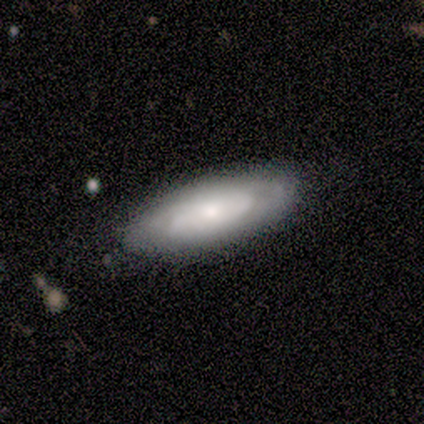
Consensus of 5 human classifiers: This appears to be a featured or disk galaxy (80%) with no bar (100%), tight (100%) spiral arms (50%, tied with no) and a moderate central bulge (50%, tied with small). Merging: none (80%).